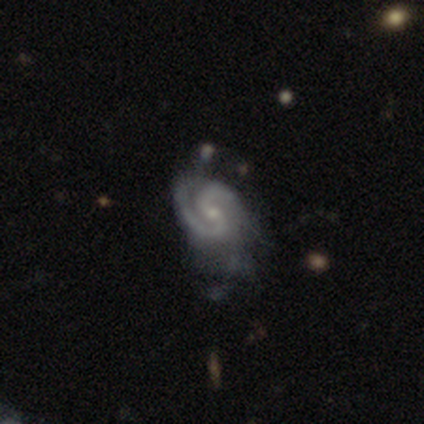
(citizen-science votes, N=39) Smooth or featured? 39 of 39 (100%) said featured or disk. Edge-on disk? 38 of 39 (97%) said no. Bar? 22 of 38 (58%) said weak. Spiral arms? 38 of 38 (100%) said yes. Spiral winding? 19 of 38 (50%) said tight. Spiral arm count? 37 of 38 (97%) said 2. Bulge size? 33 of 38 (87%) said small. Merging? 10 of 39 (26%) said minor disturbance.